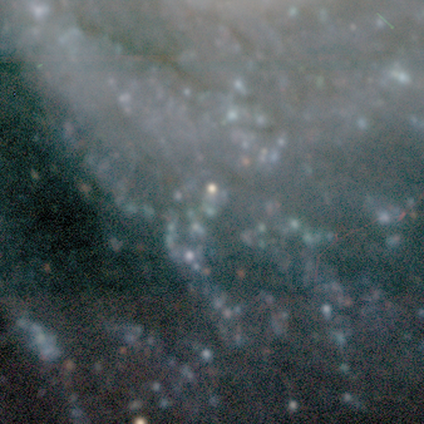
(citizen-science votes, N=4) Overall: featured or disk (50%, tied with star or artifact). Edge-on disk: no (100%). Bar: weak (50%, tied with no). Spiral arms: yes (50%, tied with no). Spiral arm count: 4 (100%). Spiral winding: medium (100%). Bulge size: small (50%, tied with none). Merging: minor disturbance (50%, tied with major disturbance).